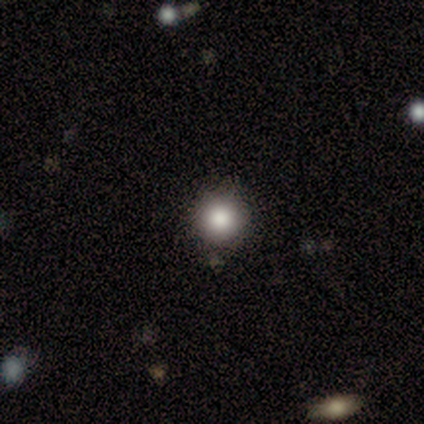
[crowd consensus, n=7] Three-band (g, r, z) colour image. It shows a smooth galaxy with no disk features (86%) that is round (100%). Merging: none (83%).